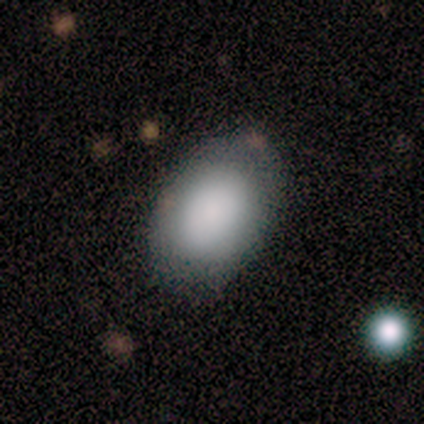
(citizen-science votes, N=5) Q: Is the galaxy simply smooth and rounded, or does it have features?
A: smooth — 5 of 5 (100%).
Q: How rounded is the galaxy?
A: in between — 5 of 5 (100%).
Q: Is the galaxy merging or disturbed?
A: none — 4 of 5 (80%).